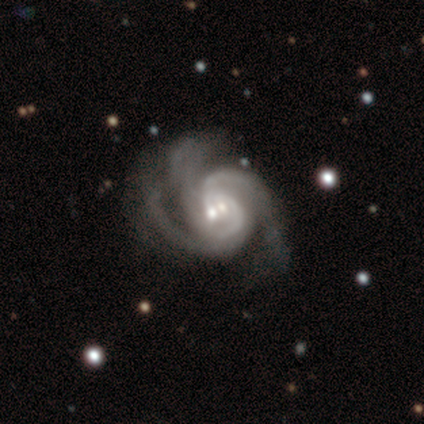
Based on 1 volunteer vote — This is clearly a featured or disk galaxy (100%). It is clearly not viewed edge-on (100%). Bar: clearly no (100%). Spiral arm pattern: clearly yes (100%). Spiral arm count: clearly can't tell (100%). Spiral winding: clearly medium (100%). Central bulge: clearly small (100%). Merging: clearly merger (100%).